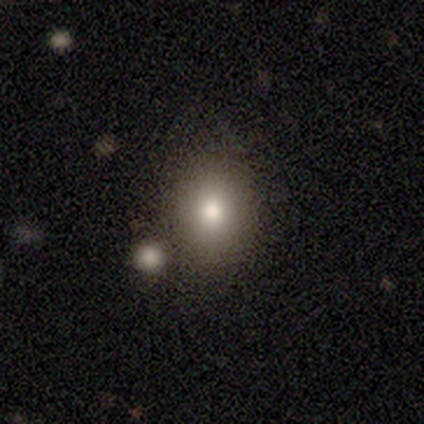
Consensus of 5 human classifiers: Smooth or featured? 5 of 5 (100%) said smooth. How rounded? 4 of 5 (80%) said in between. Merging? 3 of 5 (60%) said none.